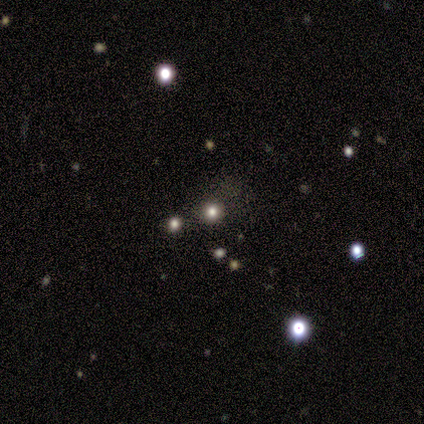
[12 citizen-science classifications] Smooth or featured? smooth (67%)
How rounded? round (88%)
Merging? none (89%)